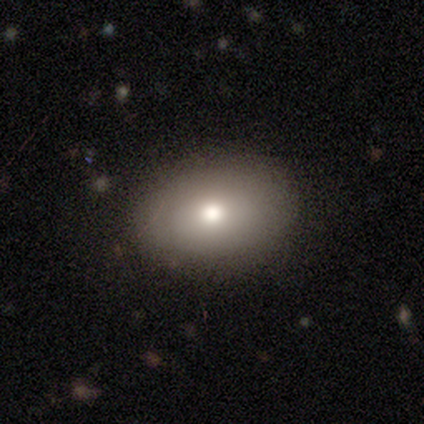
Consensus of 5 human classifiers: Q: Smooth or featured?
A: smooth (80%); runner-up: star or artifact (20%)
Q: How rounded?
A: in between (100%)
Q: Merging?
A: none (100%)